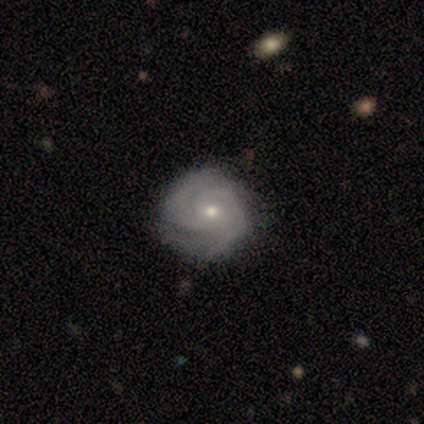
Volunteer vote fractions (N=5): Smooth or featured? 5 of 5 (100%) said featured or disk. Edge-on disk? 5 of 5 (100%) said no. Bar? 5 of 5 (100%) said no. Spiral arms? 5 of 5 (100%) said yes. Spiral winding? 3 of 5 (60%) said tight. Spiral arm count? 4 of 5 (80%) said 2. Bulge size? 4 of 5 (80%) said moderate. Merging? 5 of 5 (100%) said none.